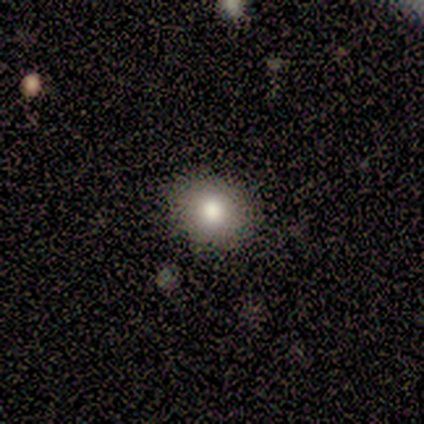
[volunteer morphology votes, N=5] Overall: smooth (80%). How rounded: round (100%). Merging: none (100%).